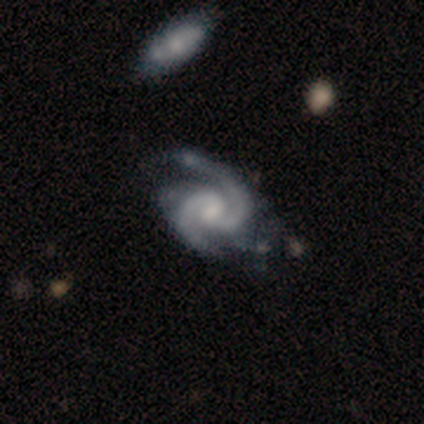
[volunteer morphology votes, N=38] featured or disk 100%, smooth 0%, star or artifact 0%. Down the decision tree: edge-on disk — no (100%); bar — no (61%); spiral arms — yes (100%); spiral arm count — 2 (95%); spiral winding — medium (58%); bulge size — small (47%); merging — minor disturbance (34%).